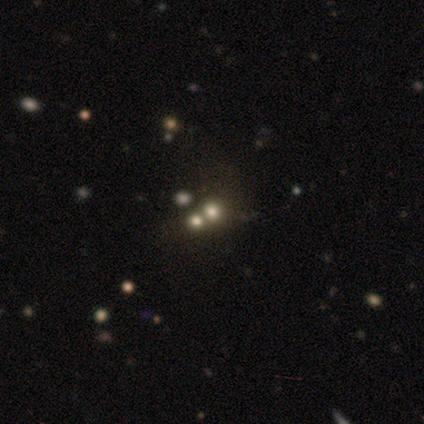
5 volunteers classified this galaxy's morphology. Volunteers were most divided on "smooth or featured": star or artifact: 60%, smooth: 40%, featured or disk: 0%.